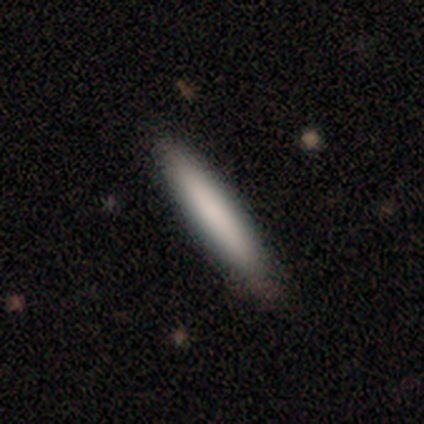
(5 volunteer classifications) smooth_or_featured: smooth (p=0.60) [alt: featured or disk p=0.40]
how_rounded: cigar-shaped (p=0.67) [alt: round p=0.33]
merging: none (p=1.00)